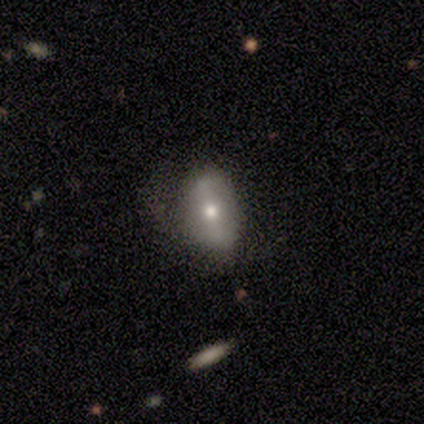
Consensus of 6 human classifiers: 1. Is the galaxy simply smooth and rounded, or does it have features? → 100% featured or disk, 0% smooth, 0% star or artifact.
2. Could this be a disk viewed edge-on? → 67% no, 33% yes.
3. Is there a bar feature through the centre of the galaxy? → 50% weak, 25% strong, 25% no.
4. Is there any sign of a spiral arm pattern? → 75% no, 25% yes.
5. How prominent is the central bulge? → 50% moderate (tied), 50% small (tied), 0% dominant, 0% large, 0% none.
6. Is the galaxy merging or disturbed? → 67% none, 33% minor disturbance, 0% major disturbance, 0% merger.